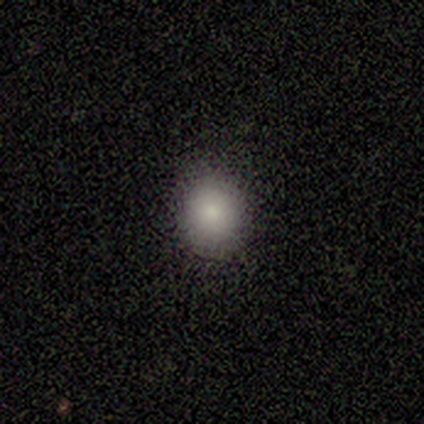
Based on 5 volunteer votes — Q: Smooth or featured?
A: smooth (100%)
Q: How rounded?
A: round (80%); runner-up: in between (20%)
Q: Merging?
A: none (100%)